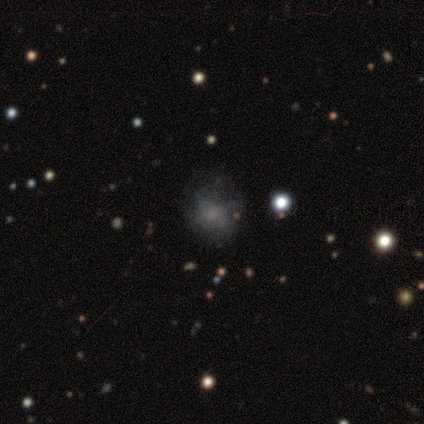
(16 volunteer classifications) Smooth or featured?
  - smooth: 50% *
  - featured or disk: 25%
  - star or artifact: 25%
How rounded?
  - round: 88% *
  - in between: 12%
  - cigar-shaped: 0%
Merging?
  - none: 83% *
  - minor disturbance: 17%
  - major disturbance: 0%
  - merger: 0%